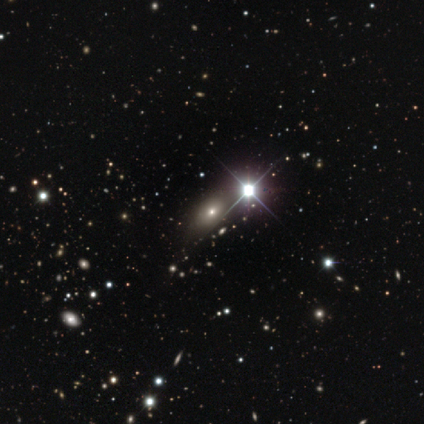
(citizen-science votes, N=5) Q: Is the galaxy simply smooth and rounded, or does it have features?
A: star or artifact — 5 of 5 (100%).